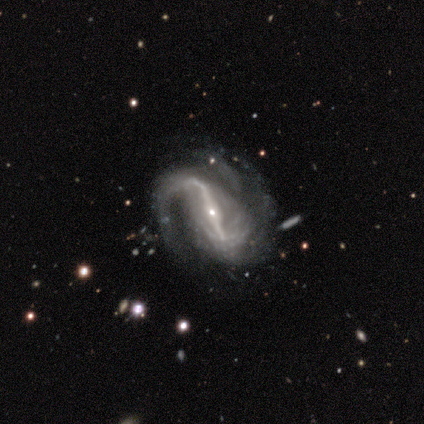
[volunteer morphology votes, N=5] Smooth or featured: featured or disk — 100%
Edge-on disk: no — 80% (yes — 20%)
Bar: strong — 100%
Spiral arms: yes — 100%
Spiral winding: medium — 50% (tied with loose — 50%)
Spiral arm count: can't tell — 50% (2 — 25%)
Bulge size: small — 75% (moderate — 25%)
Merging: minor disturbance — 40% (tied with major disturbance — 40%)